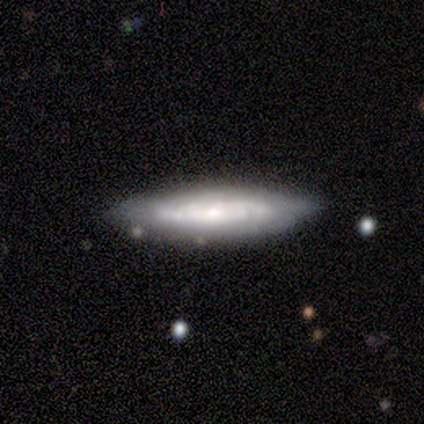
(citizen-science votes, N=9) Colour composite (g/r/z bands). It shows a featured or disk galaxy (67%) with no bar (80%), tight (80%) spiral arms (100%) and a moderate central bulge (60%). Merging: none (100%).